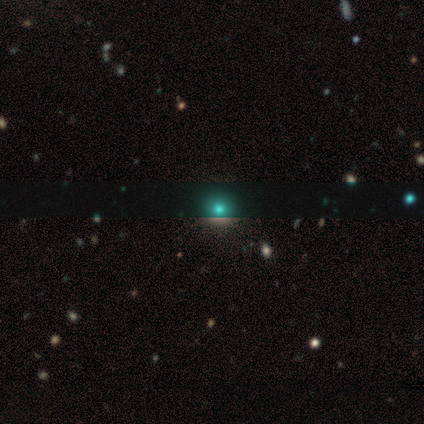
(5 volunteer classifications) smooth-or-featured: smooth: 60% | star or artifact: 40% | featured or disk: 0%
  how-rounded: round: 67% | in between: 33% | cigar-shaped: 0%
  merging: none: 67% | merger: 33% | minor disturbance: 0% | major disturbance: 0%